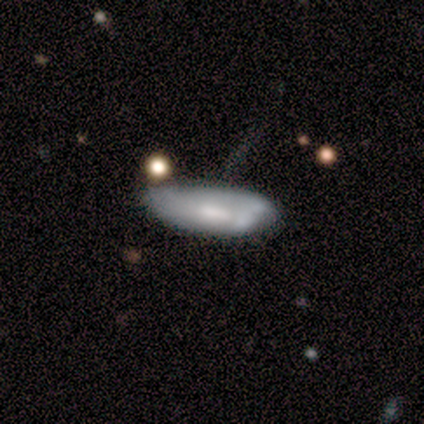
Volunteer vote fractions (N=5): Smooth or featured? 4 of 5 (80%) said smooth. How rounded? 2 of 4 (50%, tied with cigar-shaped) said in between. Merging? 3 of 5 (60%) said minor disturbance.